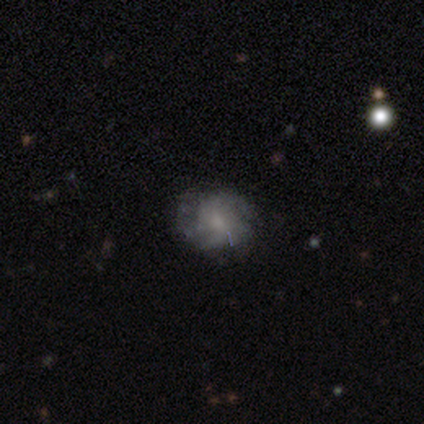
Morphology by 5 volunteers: Volunteers were most divided on "spiral arm count" (2-way tie): 2: 50%, can't tell: 50%, 1: 0%, 3: 0%, 4: 0%, more than 4: 0%. More confident: edge-on disk — no (100%); bar — no (100%); spiral winding — medium (100%); spiral arms — yes (67%); bulge size — small (67%); merging — none (67%); smooth or featured — featured or disk (60%).